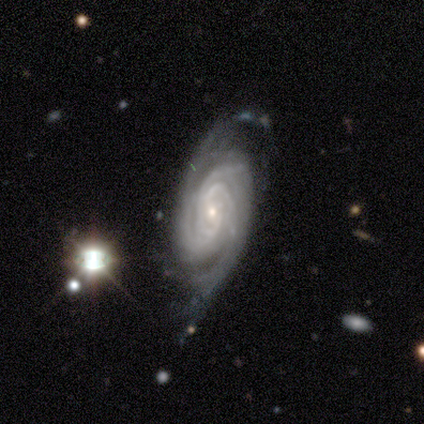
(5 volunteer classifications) smooth_or_featured: featured or disk (p=1.00)
disk_edge_on: no (p=0.80) [alt: yes p=0.20]
bar: no (p=1.00)
has_spiral_arms: yes (p=1.00)
spiral_winding: tight (p=0.75) [alt: medium p=0.25]
spiral_arm_count: 2 (p=0.75) [alt: 4 p=0.25]
bulge_size: small (p=1.00)
merging: none (p=0.80) [alt: merger p=0.20]